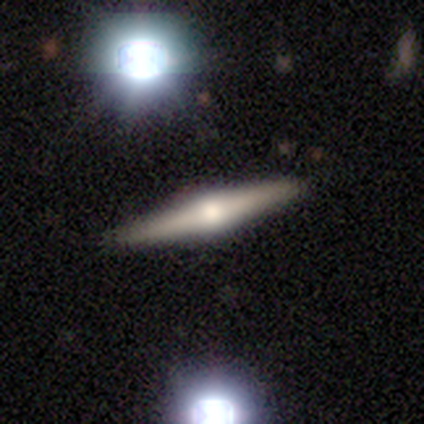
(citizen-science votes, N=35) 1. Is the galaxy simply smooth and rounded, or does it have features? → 66% featured or disk, 23% smooth, 11% star or artifact.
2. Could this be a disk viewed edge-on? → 100% yes, 0% no.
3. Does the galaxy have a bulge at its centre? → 100% rounded, 0% boxy, 0% none.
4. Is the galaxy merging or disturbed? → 90% none, 6% minor disturbance, 3% major disturbance, 0% merger.